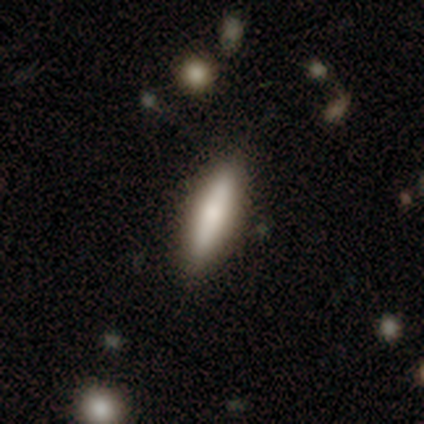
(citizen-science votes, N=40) Smooth or featured?
  - smooth: 75% *
  - featured or disk: 22%
  - star or artifact: 2%
How rounded?
  - cigar-shaped: 67% *
  - in between: 33%
  - round: 0%
Merging?
  - none: 85% *
  - minor disturbance: 10%
  - major disturbance: 5%
  - merger: 0%